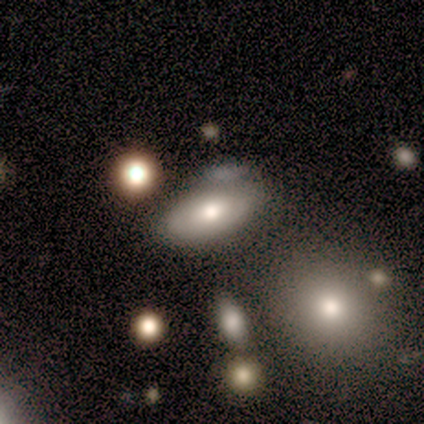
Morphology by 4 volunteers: Smooth or featured? 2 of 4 (50%, tied with featured or disk) said smooth. How rounded? 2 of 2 (100%) said in between. Merging? 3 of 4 (75%) said none.